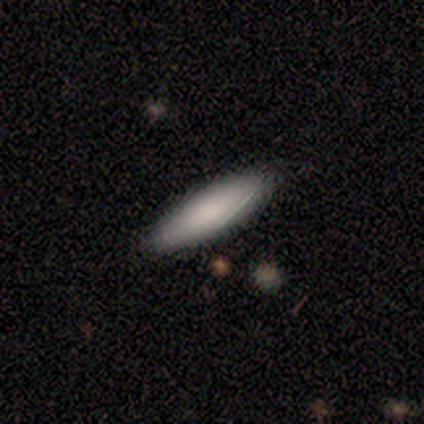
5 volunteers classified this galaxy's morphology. A smooth galaxy with no disk features (80%) that is cigar-shaped (75%). Merging: none (100%).